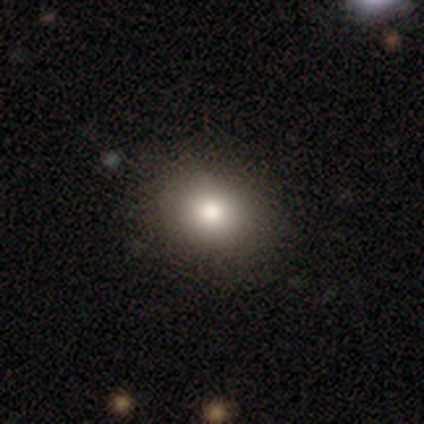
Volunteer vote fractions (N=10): Morphology: type=smooth (100%); roundness=round (100%); merging=none (90%).